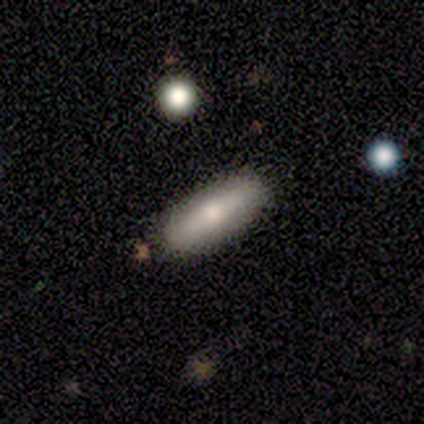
Q: Smooth or featured?
A: featured or disk (60%); runner-up: smooth (40%)
Q: Edge-on disk?
A: yes (67%); runner-up: no (33%)
Q: Edge-on bulge?
A: rounded (100%)
Q: Merging?
A: none (100%)